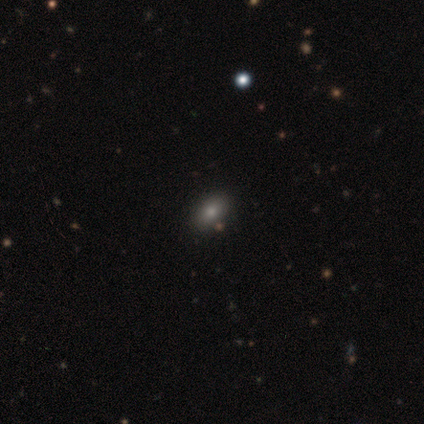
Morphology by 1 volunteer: Smooth or featured: smooth — 100%
How rounded: in between — 100%
Merging: none — 100%